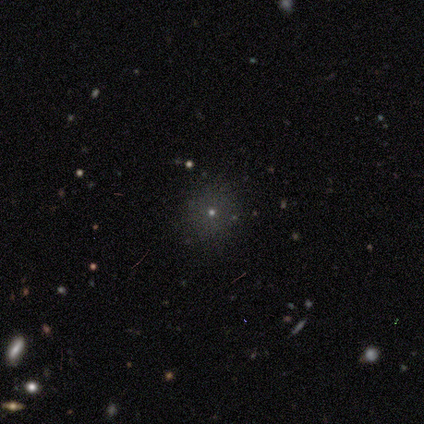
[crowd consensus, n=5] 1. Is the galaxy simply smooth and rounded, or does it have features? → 80% smooth, 20% featured or disk, 0% star or artifact.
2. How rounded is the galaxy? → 100% round, 0% in between, 0% cigar-shaped.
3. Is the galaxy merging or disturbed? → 100% none, 0% minor disturbance, 0% major disturbance, 0% merger.